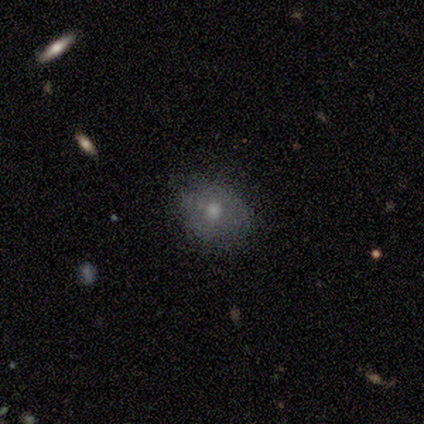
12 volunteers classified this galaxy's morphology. Smooth or featured?
  - featured or disk: 58% *
  - smooth: 33%
  - star or artifact: 8%
Edge-on disk?
  - no: 100% *
  - yes: 0%
Bar?
  - no: 100% *
  - strong: 0%
  - weak: 0%
Spiral arms?
  - no: 86% *
  - yes: 14%
Bulge size?
  - moderate: 71% *
  - large: 14%
  - small: 14%
  - dominant: 0%
  - none: 0%
Merging?
  - none: 64% *
  - minor disturbance: 36%
  - major disturbance: 0%
  - merger: 0%